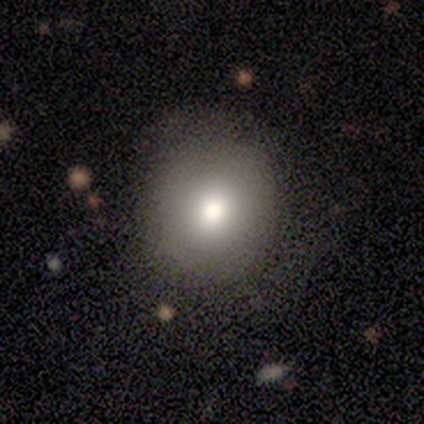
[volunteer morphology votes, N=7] Smooth or featured?
  - smooth: 86% *
  - star or artifact: 14%
  - featured or disk: 0%
How rounded?
  - round: 100% *
  - in between: 0%
  - cigar-shaped: 0%
Merging?
  - none: 67% *
  - minor disturbance: 33%
  - major disturbance: 0%
  - merger: 0%